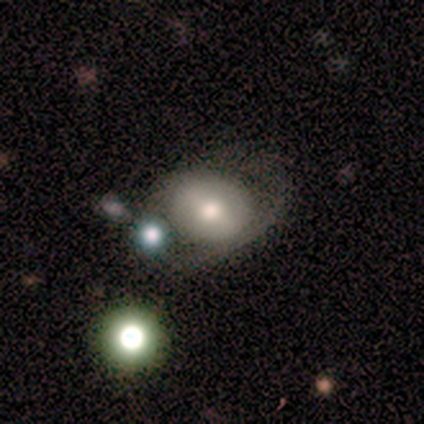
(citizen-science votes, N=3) A featured or disk galaxy (100%) with a strong bar (67%), 1 (50%, tied with can't tell) tight (50%, tied with loose) spiral arms (67%) and a moderate central bulge (100%).

Vote fractions:
- Smooth or featured? featured or disk: 100% / smooth: 0% / star or artifact: 0%
- Edge-on disk? no: 100% / yes: 0%
- Bar? strong: 67% / weak: 33% / no: 0%
- Spiral arms? yes: 67% / no: 33%
- Spiral winding? tight: 50% (tied) / loose: 50% (tied) / medium: 0%
- Spiral arm count? 1: 50% (tied) / can't tell: 50% (tied) / 2: 0% / 3: 0% / 4: 0% / more than 4: 0%
- Bulge size? moderate: 100% / dominant: 0% / large: 0% / small: 0% / none: 0%
- Merging? major disturbance: 67% / merger: 33% / none: 0% / minor disturbance: 0%